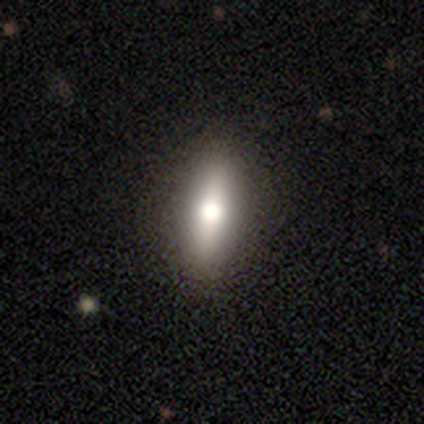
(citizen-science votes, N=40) smooth 72%, featured or disk 25%, star or artifact 2%. Down the decision tree: how rounded — in between (55%); merging — none (69%).